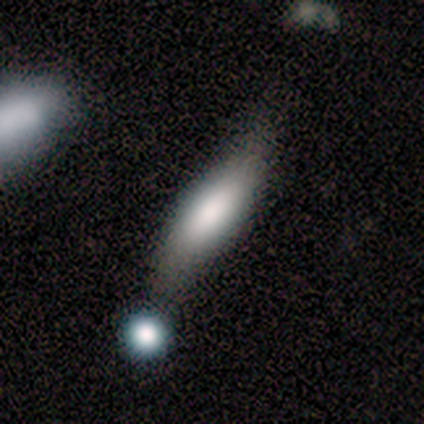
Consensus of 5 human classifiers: Smooth or featured: smooth — 60% (featured or disk — 20%)
How rounded: cigar-shaped — 100%
Merging: none — 100%